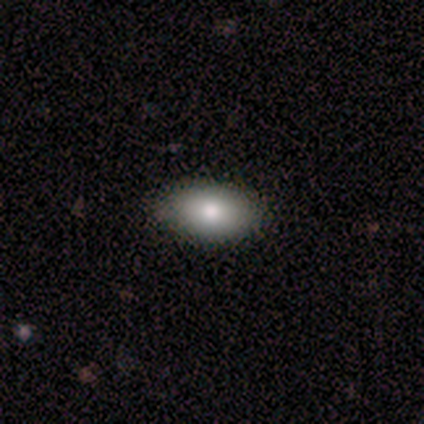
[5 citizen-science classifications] A smooth galaxy with no disk features (80%) that is in between round and cigar-shaped (100%). Merging: none (80%).